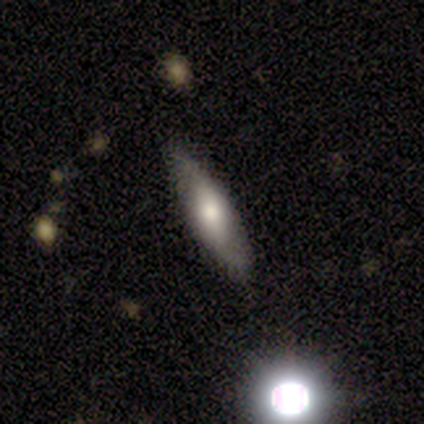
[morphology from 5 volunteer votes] A featured or disk galaxy (80%) with no bar (67%), no spiral arms (67%) and a moderate central bulge (67%). Merging: none (80%).